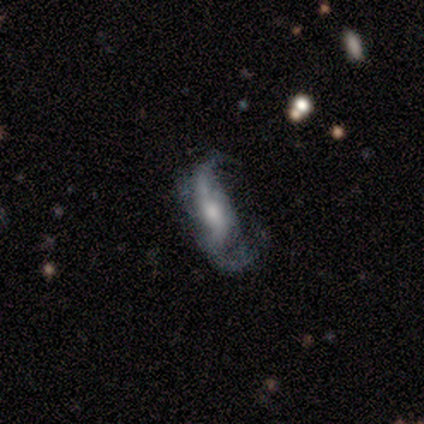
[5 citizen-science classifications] Overall: featured or disk (60%; smooth 40%). Edge-on disk: no (100%). Bar: no (67%; strong 33%). Spiral arms: yes (100%). Spiral arm count: 2 (67%; can't tell 33%). Spiral winding: loose (67%; medium 33%). Bulge size: moderate (67%; small 33%). Merging: minor disturbance (60%; major disturbance 40%).